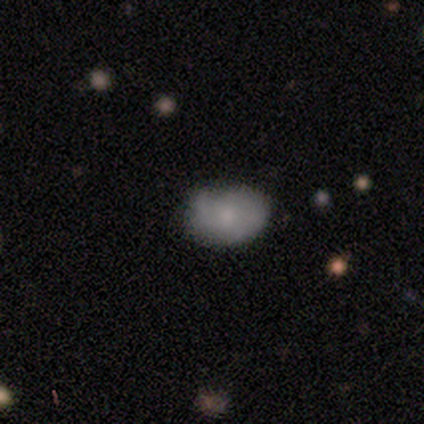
Morphology: type=smooth (60%); roundness=in between (100%); merging=none (60%).